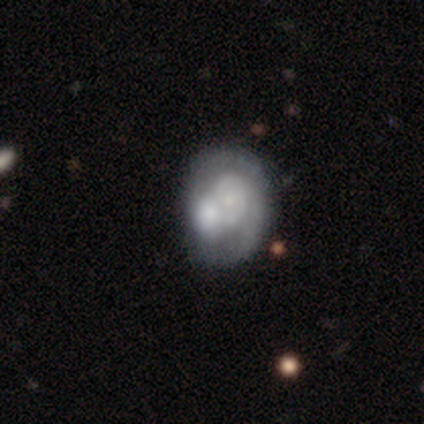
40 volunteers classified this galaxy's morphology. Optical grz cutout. It shows a featured or disk galaxy (78%) with no bar (97%), 2 (40%) tight (55%) spiral arms (65%) and a small central bulge (65%). Merging: merger (63%).